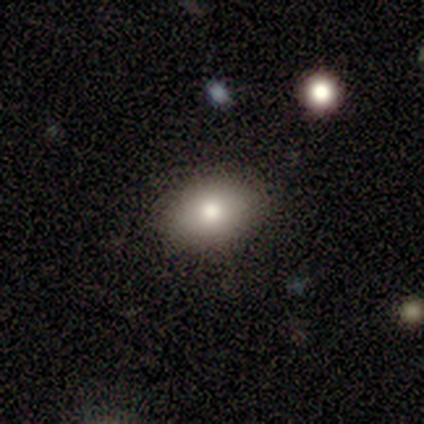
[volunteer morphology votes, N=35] Overall: smooth (71%). How rounded: in between (76%). Merging: none (90%).